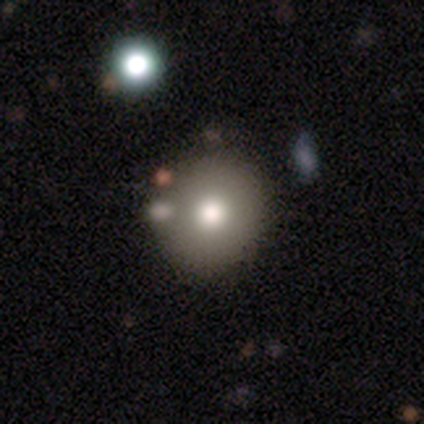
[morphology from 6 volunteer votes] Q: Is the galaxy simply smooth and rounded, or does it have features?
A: smooth — 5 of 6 (83%).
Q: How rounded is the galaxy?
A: round — 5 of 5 (100%).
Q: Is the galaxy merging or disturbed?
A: none — 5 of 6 (83%).